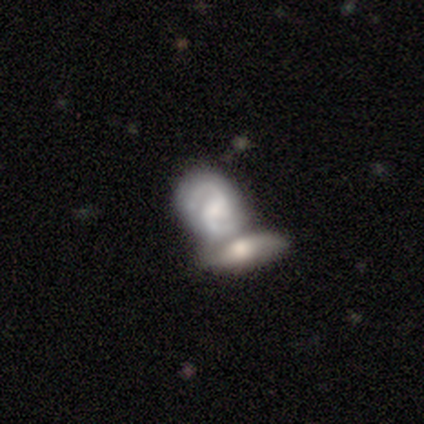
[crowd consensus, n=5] smooth-or-featured: featured or disk: 80% | star or artifact: 20% | smooth: 0%
  disk-edge-on: no: 100% | yes: 0%
    bar: weak: 100% | strong: 0% | no: 0%
    has-spiral-arms: yes: 100% | no: 0%
      spiral-winding: medium: 50% | tight: 25% | loose: 25%
      spiral-arm-count: 2: 100% | 1: 0% | 3: 0% | 4: 0% | more than 4: 0% | can't tell: 0%
    bulge-size: moderate: 50% (tied) | small: 50% (tied) | dominant: 0% | large: 0% | none: 0%
  merging: none: 50% (tied) | merger: 50% (tied) | minor disturbance: 0% | major disturbance: 0%